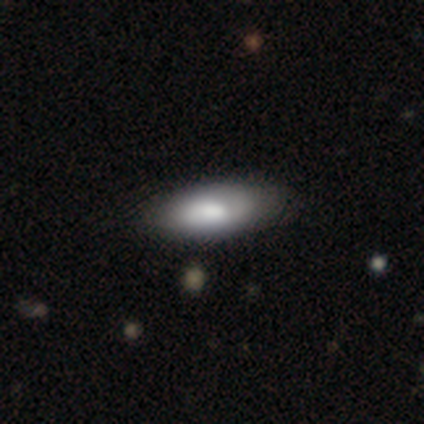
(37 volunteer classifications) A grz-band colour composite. It shows a smooth galaxy with no disk features (73%) that is in between round and cigar-shaped (59%). Merging: none (74%).